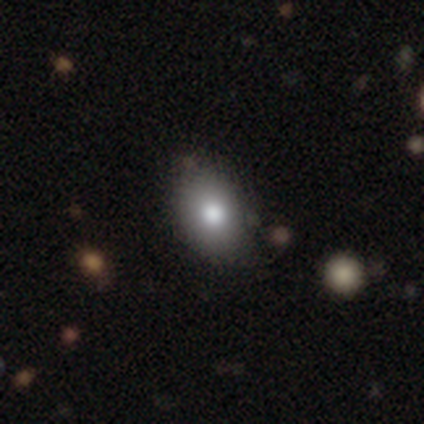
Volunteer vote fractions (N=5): smooth_or_featured: smooth (p=0.80) [alt: featured or disk p=0.20]
how_rounded: in between (p=1.00)
merging: none (p=1.00)